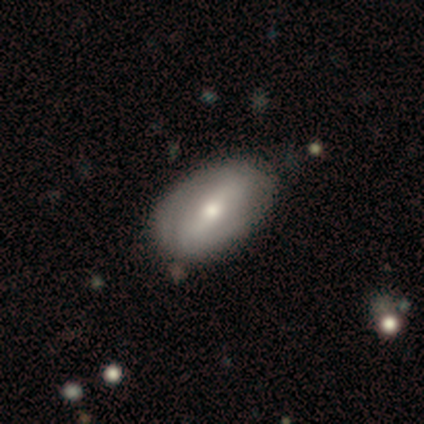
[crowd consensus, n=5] Overall: featured or disk (80%). Edge-on disk: no (100%). Bar: strong (50%, tied with weak). Spiral arms: yes (50%, tied with no). Spiral arm count: 1 (50%, tied with can't tell). Spiral winding: tight (100%). Bulge size: moderate (50%, tied with small). Merging: none (75%).